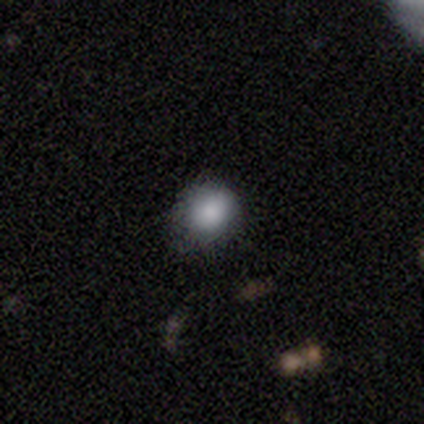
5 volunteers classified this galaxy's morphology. Smooth or featured? 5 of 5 (100%) said smooth. How rounded? 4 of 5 (80%) said round. Merging? 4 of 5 (80%) said none.